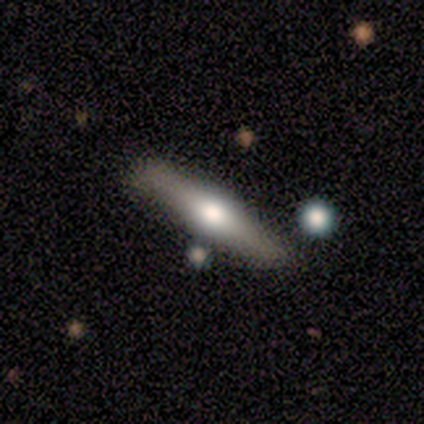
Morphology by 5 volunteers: featured or disk 100%, smooth 0%, star or artifact 0%. Down the decision tree: edge-on disk — yes (100%); edge-on bulge — rounded (100%); merging — none (60%).